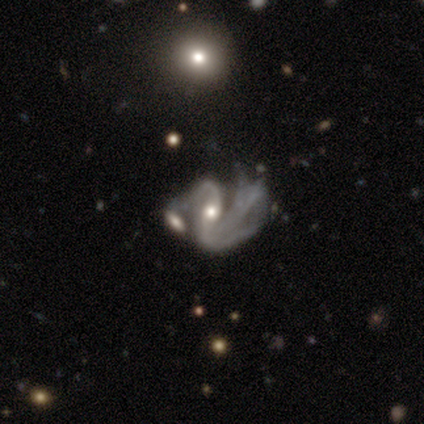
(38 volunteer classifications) This appears to be a featured or disk galaxy (92%) with no bar (37%), 2 (59%) loose (55%) spiral arms (83%) and a moderate central bulge (69%). Merging: merger (43%).